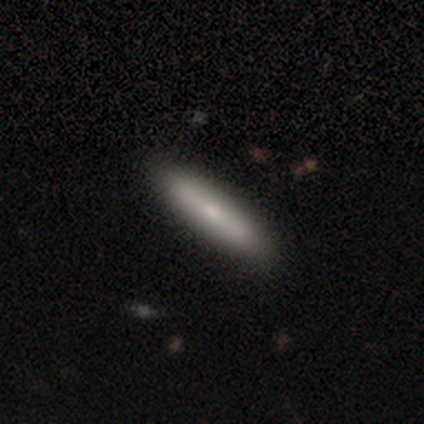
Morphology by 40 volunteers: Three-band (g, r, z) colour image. It shows a smooth galaxy with no disk features (70%) that is cigar-shaped (82%). Merging: none (62%).